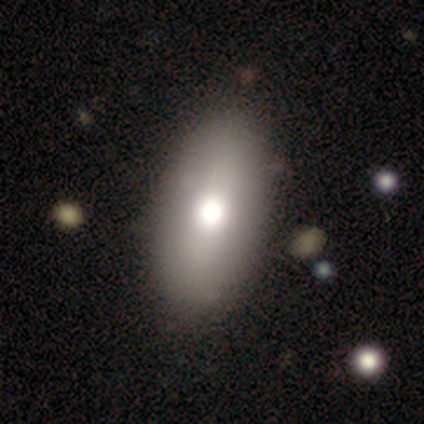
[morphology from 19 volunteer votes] A smooth galaxy with no disk features (68%) that is in between round and cigar-shaped (92%).

Vote fractions:
- Smooth or featured? smooth: 68% / featured or disk: 26% / star or artifact: 5%
- How rounded? in between: 92% / cigar-shaped: 8% / round: 0%
- Merging? none: 72% / minor disturbance: 22% / major disturbance: 6% / merger: 0%